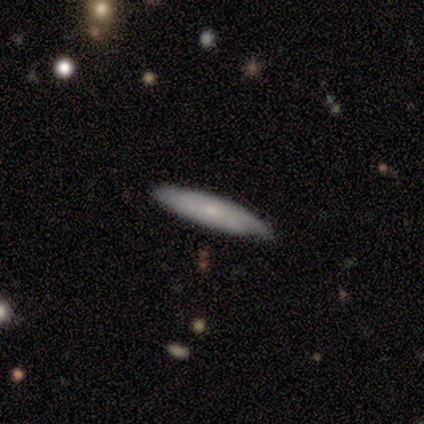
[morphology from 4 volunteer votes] This is possibly a smooth galaxy (50%, tied with featured or disk). How rounded: possibly in between (50%, tied with cigar-shaped). Merging: likely none (75%).